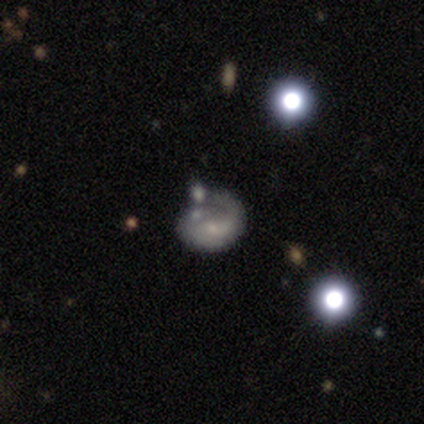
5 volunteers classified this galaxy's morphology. type=featured or disk (80%); edge-on=no (100%); bar=no (100%); spiral arms=yes (75%); winding=loose (100%); arm count=can't tell (67%); bulge=small (75%); merging=none (80%).